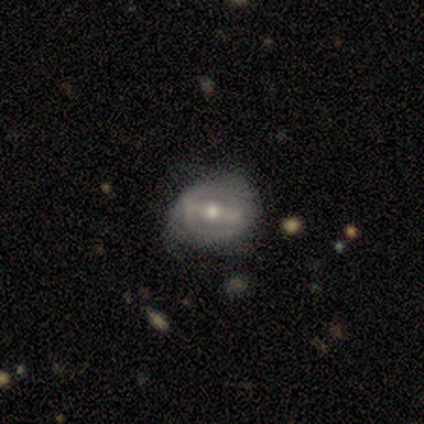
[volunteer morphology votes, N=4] smooth-or-featured: featured or disk: 75% | star or artifact: 25% | smooth: 0%
  disk-edge-on: no: 100% | yes: 0%
    bar: strong: 67% | no: 33% | weak: 0%
    has-spiral-arms: yes: 67% | no: 33%
      spiral-winding: medium: 50% (tied) | loose: 50% (tied) | tight: 0%
      spiral-arm-count: 2: 50% (tied) | can't tell: 50% (tied) | 1: 0% | 3: 0% | 4: 0% | more than 4: 0%
    bulge-size: moderate: 100% | dominant: 0% | large: 0% | small: 0% | none: 0%
  merging: none: 100% | minor disturbance: 0% | major disturbance: 0% | merger: 0%